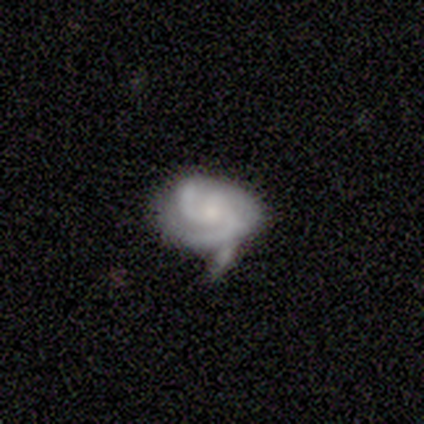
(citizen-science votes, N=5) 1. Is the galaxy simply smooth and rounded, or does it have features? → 100% featured or disk, 0% smooth, 0% star or artifact.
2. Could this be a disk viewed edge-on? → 100% no, 0% yes.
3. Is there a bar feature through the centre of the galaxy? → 100% no, 0% strong, 0% weak.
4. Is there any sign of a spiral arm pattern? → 80% yes, 20% no.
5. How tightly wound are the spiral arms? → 75% medium, 25% loose, 0% tight.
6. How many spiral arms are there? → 50% 2, 25% 3, 25% can't tell, 0% 1, 0% 4, 0% more than 4.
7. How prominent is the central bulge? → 80% small, 20% moderate, 0% dominant, 0% large, 0% none.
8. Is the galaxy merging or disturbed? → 60% none, 20% minor disturbance, 20% merger, 0% major disturbance.